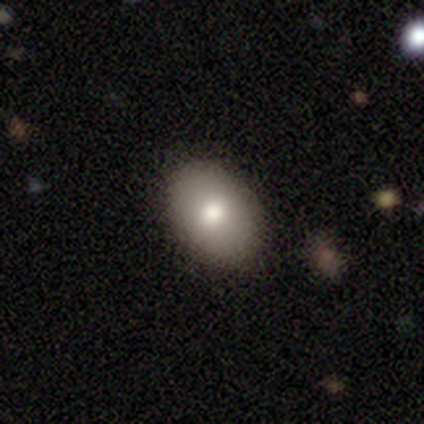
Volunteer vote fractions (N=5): Smooth or featured?
  - smooth: 80% *
  - featured or disk: 20%
  - star or artifact: 0%
How rounded?
  - in between: 100% *
  - round: 0%
  - cigar-shaped: 0%
Merging?
  - none: 100% *
  - minor disturbance: 0%
  - major disturbance: 0%
  - merger: 0%